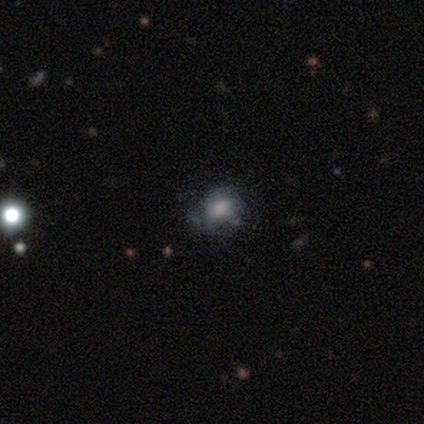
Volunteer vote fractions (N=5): This appears to be a featured or disk galaxy (60%) with no bar (100%), 2 (50%, tied with 3) tight (50%, tied with medium) spiral arms (67%) and a moderate central bulge (67%). Merging: none (50%, tied with minor disturbance).